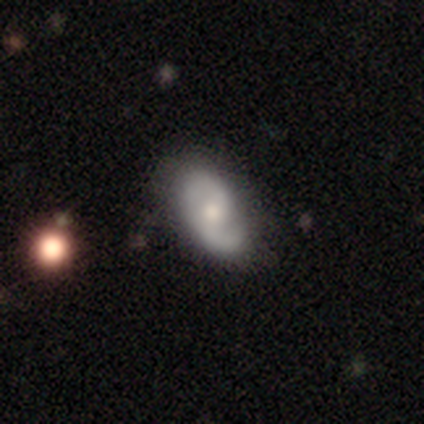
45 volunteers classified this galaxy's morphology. A featured or disk galaxy (67%) with a weak bar (54%), 2 (92%) medium (48%) spiral arms (89%) and a moderate central bulge (61%). Merging: none (79%).